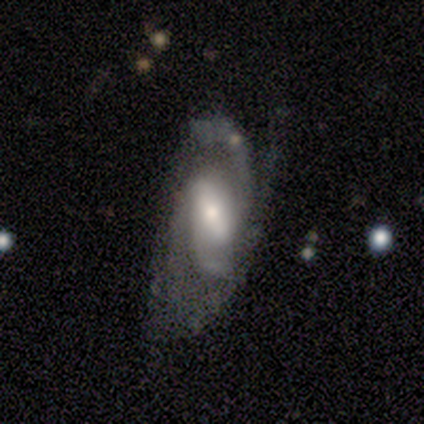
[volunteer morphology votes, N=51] Overall: featured or disk (90%). Edge-on disk: no (98%). Bar: strong (42%; weak 36%). Spiral arms: yes (89%). Spiral arm count: 2 (50%; 3 28%). Spiral winding: medium (60%; tight 28%). Bulge size: moderate (62%; small 33%). Merging: none (33%, tied with minor disturbance).